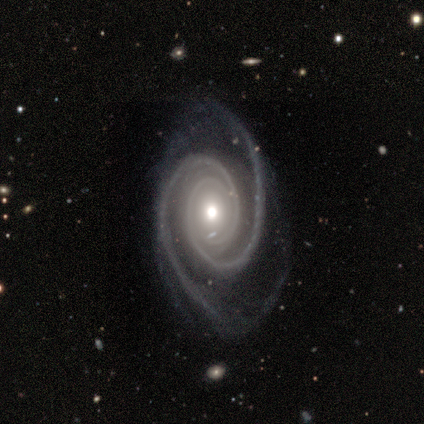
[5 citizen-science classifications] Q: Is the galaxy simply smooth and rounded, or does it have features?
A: featured or disk — 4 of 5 (80%).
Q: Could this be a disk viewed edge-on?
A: no — 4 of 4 (100%).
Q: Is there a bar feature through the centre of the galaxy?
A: no — 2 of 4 (50%).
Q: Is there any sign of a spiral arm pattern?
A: yes — 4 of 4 (100%).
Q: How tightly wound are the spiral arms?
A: tight — 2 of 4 (50%, tied with medium).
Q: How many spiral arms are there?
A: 2 — 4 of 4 (100%).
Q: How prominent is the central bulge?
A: moderate — 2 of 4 (50%).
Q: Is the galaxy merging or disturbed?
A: none — 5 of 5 (100%).